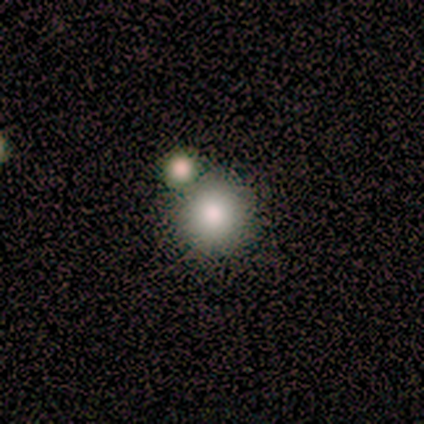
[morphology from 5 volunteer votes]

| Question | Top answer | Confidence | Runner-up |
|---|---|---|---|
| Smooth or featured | smooth | 80% | star or artifact (20%) |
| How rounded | round | 100% | — |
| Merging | none | 100% | — |